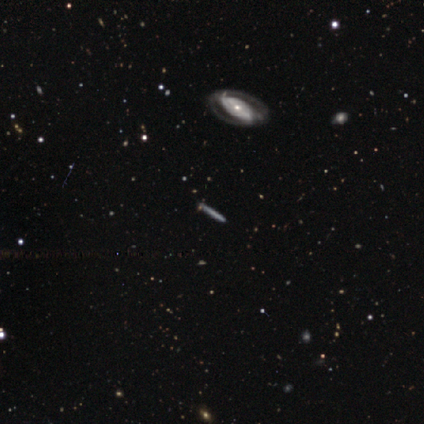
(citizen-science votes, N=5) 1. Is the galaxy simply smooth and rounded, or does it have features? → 60% featured or disk, 20% smooth, 20% star or artifact.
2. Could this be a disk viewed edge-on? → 67% yes, 33% no.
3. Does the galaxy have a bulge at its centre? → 50% none (tied), 50% rounded (tied), 0% boxy.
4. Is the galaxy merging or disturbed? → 50% none, 25% minor disturbance, 25% merger, 0% major disturbance.